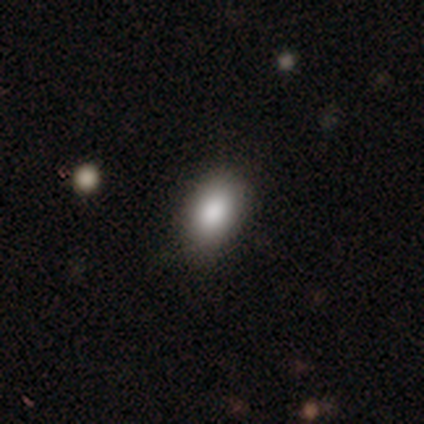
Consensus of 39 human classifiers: This appears to be a smooth galaxy with no disk features (92%) that is in between round and cigar-shaped (97%). Merging: none (86%).